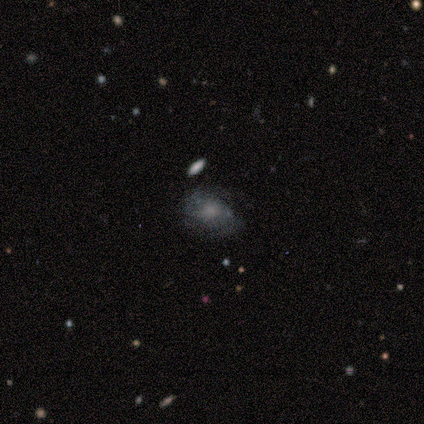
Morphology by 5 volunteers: Smooth or featured: smooth — 40% (tied with featured or disk — 40%)
How rounded: round — 50% (tied with in between — 50%)
Merging: none — 50% (tied with major disturbance — 50%)